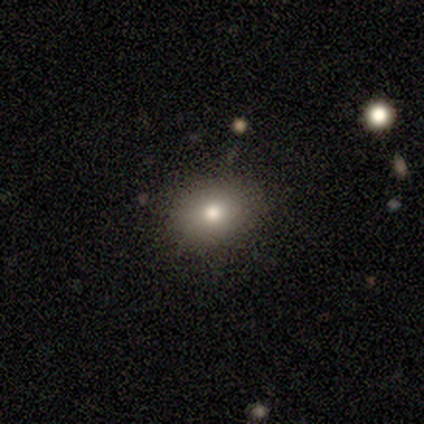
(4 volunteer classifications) This appears to be a smooth galaxy with no disk features (50%, tied with featured or disk) that is in between round and cigar-shaped (100%). Merging: minor disturbance (50%).